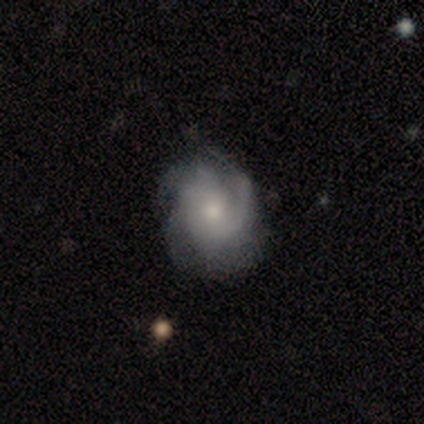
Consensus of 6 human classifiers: Overall: featured or disk (100%). Edge-on disk: no (100%). Bar: no (67%; weak 33%). Spiral arms: yes (83%). Spiral arm count: 3 (40%, tied with can't tell). Spiral winding: loose (60%; tight 40%). Bulge size: small (67%; moderate 33%). Merging: none (100%).